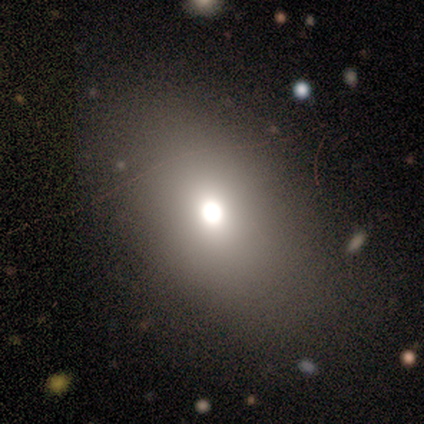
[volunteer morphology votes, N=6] Smooth or featured: smooth — 50% (featured or disk — 33%)
How rounded: in between — 67% (round — 33%)
Merging: none — 100%